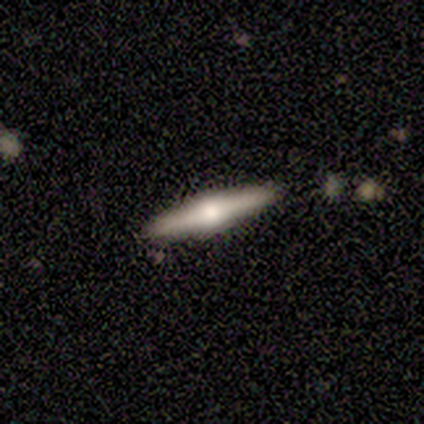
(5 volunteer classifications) Smooth or featured? featured or disk (80%)
Edge-on disk? yes (100%)
Edge-on bulge? boxy (50%, tied with rounded)
Merging? none (100%)